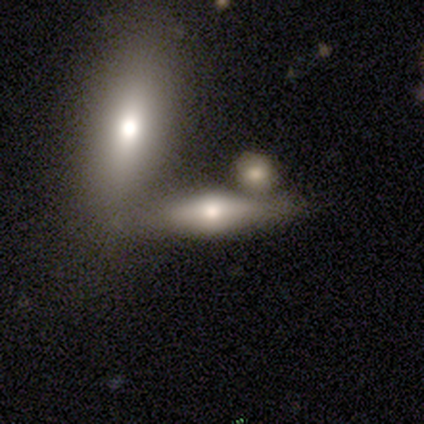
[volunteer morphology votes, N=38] Smooth or featured: featured or disk — 50% (smooth — 34%)
Edge-on disk: yes — 95% (no — 5%)
Edge-on bulge: rounded — 94% (boxy — 6%)
Merging: merger — 56%